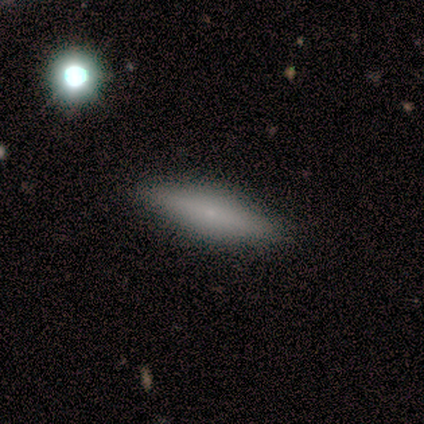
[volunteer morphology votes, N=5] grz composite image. It shows a smooth galaxy with no disk features (60%) that is cigar-shaped (100%). Merging: none (100%).